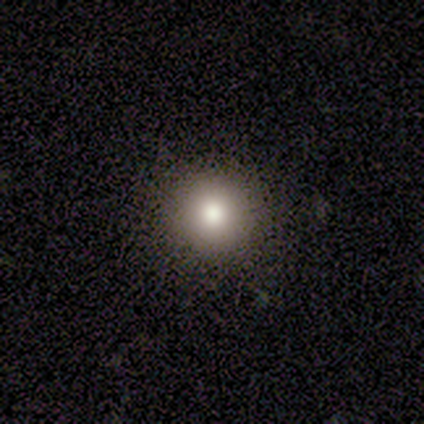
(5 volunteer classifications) Smooth or featured?
  - smooth: 100% *
  - featured or disk: 0%
  - star or artifact: 0%
How rounded?
  - round: 100% *
  - in between: 0%
  - cigar-shaped: 0%
Merging?
  - none: 100% *
  - minor disturbance: 0%
  - major disturbance: 0%
  - merger: 0%